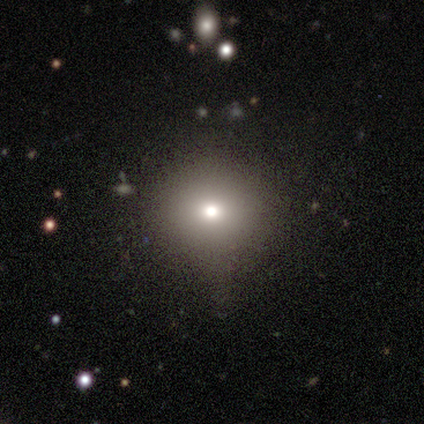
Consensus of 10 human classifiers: Smooth or featured: smooth — 70% (featured or disk — 20%)
How rounded: round — 86% (in between — 14%)
Merging: none — 78% (minor disturbance — 11%)